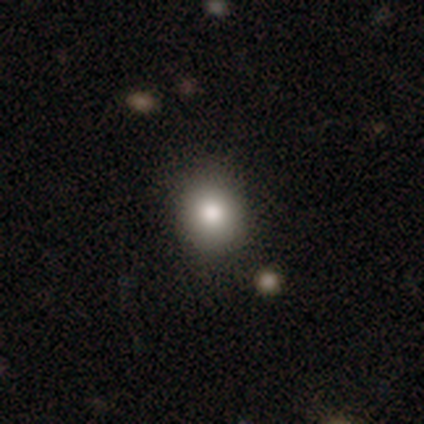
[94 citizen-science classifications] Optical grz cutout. It shows a smooth galaxy with no disk features (81%) that is round (72%). Merging: none (88%).